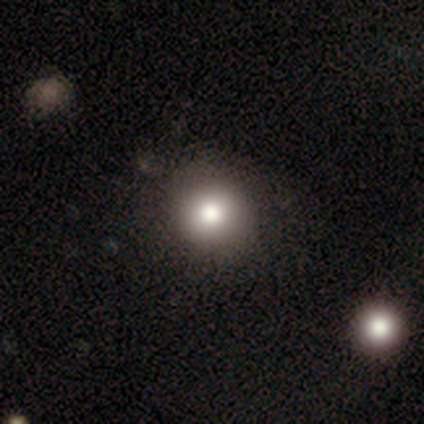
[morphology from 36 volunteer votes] smooth-or-featured: smooth: 83% | featured or disk: 8% | star or artifact: 8%
  how-rounded: round: 93% | in between: 7% | cigar-shaped: 0%
  merging: none: 55% | merger: 12% | minor disturbance: 6% | major disturbance: 0%